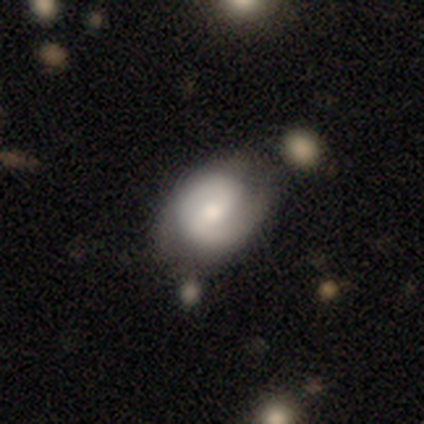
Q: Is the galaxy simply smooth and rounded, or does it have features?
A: smooth — 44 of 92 (48%).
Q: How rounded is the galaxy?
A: in between — 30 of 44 (68%).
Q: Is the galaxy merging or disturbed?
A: none — 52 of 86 (60%).